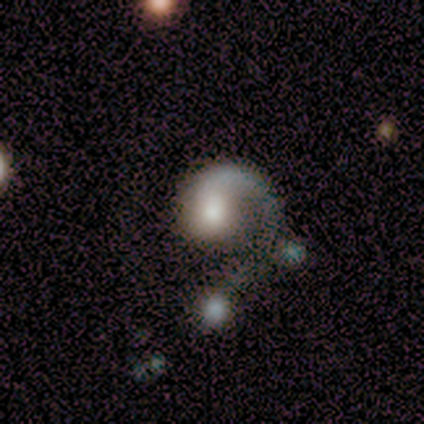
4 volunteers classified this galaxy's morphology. A featured or disk galaxy (75%) with no bar (67%), 1 (67%) medium (67%) spiral arms (100%) and a moderate central bulge (67%).

Vote fractions:
- Smooth or featured? featured or disk: 75% / smooth: 25% / star or artifact: 0%
- Edge-on disk? no: 100% / yes: 0%
- Bar? no: 67% / strong: 33% / weak: 0%
- Spiral arms? yes: 100% / no: 0%
- Spiral winding? medium: 67% / loose: 33% / tight: 0%
- Spiral arm count? 1: 67% / 3: 33% / 2: 0% / 4: 0% / more than 4: 0% / can't tell: 0%
- Bulge size? moderate: 67% / small: 33% / dominant: 0% / large: 0% / none: 0%
- Merging? major disturbance: 50% / none: 25% / merger: 25% / minor disturbance: 0%